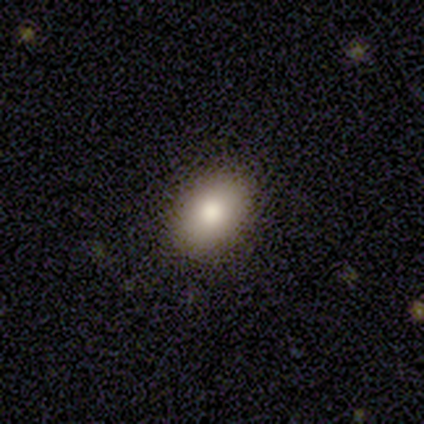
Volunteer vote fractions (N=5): smooth 100%, featured or disk 0%, star or artifact 0%. Down the decision tree: how rounded — in between (100%); merging — none (80%).